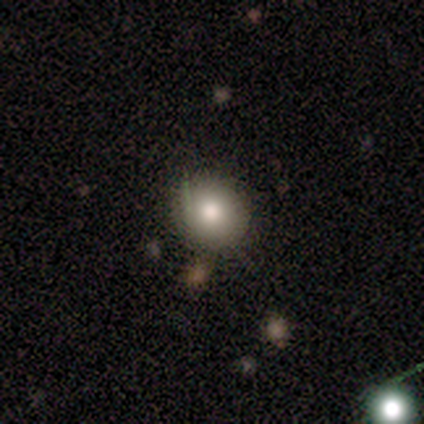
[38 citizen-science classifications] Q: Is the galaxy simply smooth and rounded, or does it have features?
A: smooth — 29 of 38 (76%).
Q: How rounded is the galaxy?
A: round — 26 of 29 (90%).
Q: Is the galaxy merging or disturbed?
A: none — 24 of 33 (73%).